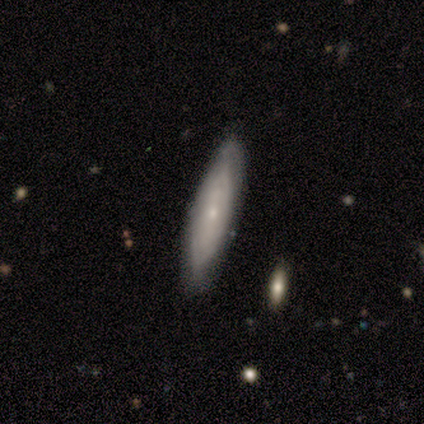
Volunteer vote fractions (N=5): This appears to be a featured or disk galaxy (60%) with no bar (100%), tight (50%, tied with loose) spiral arms (100%) and a small central bulge (100%). Merging: none (80%).